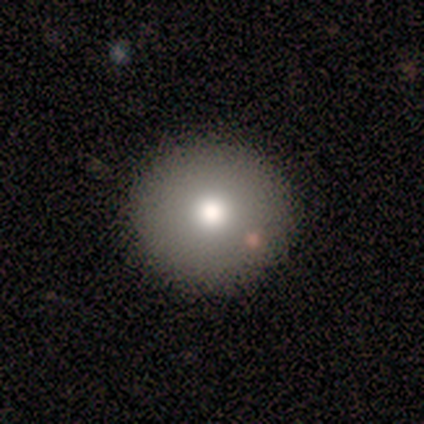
Smooth or featured? 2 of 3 (67%) said smooth. How rounded? 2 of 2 (100%) said round. Merging? 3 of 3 (100%) said none.